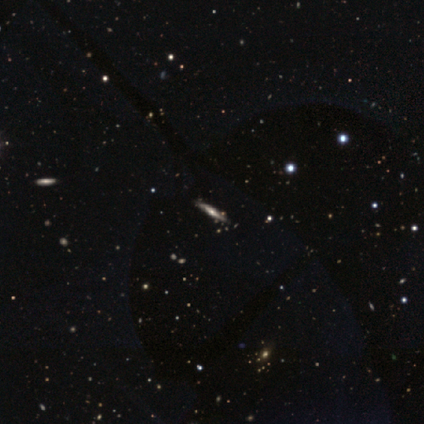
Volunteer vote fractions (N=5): This appears to be a featured or disk galaxy (40%, tied with star or artifact) viewed edge-on (100%) with a rounded central bulge (100%). Merging: none (67%).